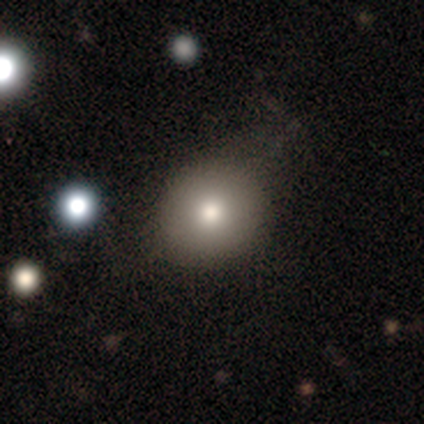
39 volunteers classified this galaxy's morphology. This is likely a smooth galaxy (77%). How rounded: clearly round (87%). Merging: likely none (71%).